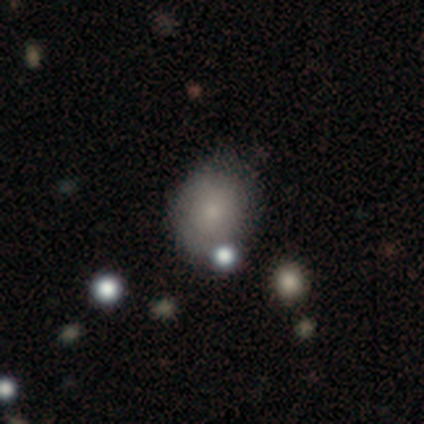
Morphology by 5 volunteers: Smooth or featured: smooth — 80% (featured or disk — 20%)
How rounded: round — 50% (tied with in between — 50%)
Merging: none — 40% (tied with minor disturbance — 40%)